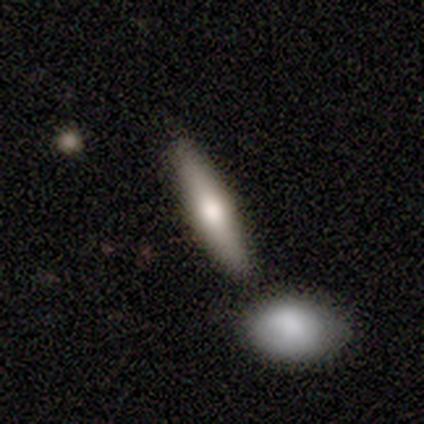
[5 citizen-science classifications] Smooth or featured: smooth — 60% (featured or disk — 40%)
How rounded: cigar-shaped — 67% (in between — 33%)
Merging: none — 100%